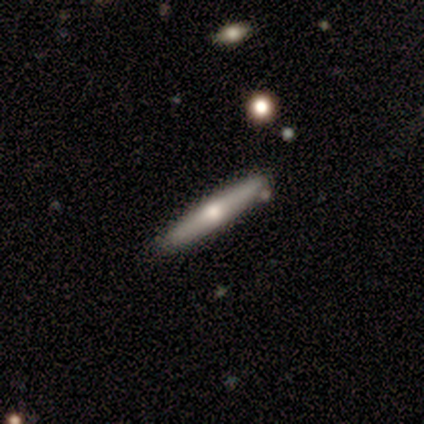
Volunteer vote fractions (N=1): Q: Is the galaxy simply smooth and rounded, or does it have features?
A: featured or disk — 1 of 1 (100%).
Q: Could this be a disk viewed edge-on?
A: yes — 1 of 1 (100%).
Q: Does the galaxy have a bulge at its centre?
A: rounded — 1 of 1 (100%).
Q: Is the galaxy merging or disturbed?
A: none — 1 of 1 (100%).